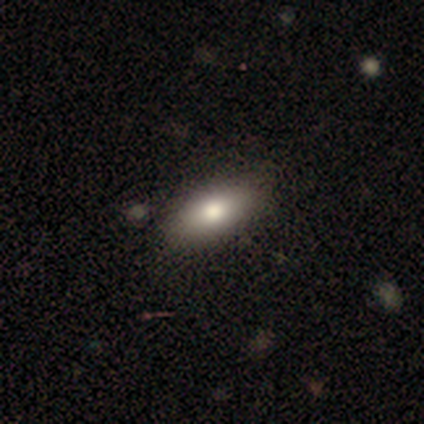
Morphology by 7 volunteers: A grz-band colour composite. It shows a smooth galaxy with no disk features (71%) that is in between round and cigar-shaped (80%). Merging: none (80%).